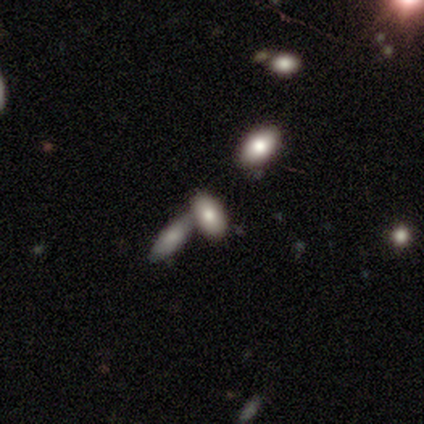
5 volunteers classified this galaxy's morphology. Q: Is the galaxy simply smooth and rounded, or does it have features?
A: smooth — 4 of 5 (80%).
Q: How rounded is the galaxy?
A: in between — 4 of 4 (100%).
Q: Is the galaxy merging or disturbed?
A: none — 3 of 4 (75%).